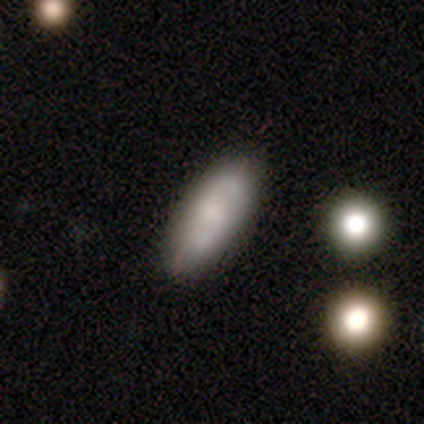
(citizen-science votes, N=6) Smooth or featured: smooth — 83% (featured or disk — 17%)
How rounded: in between — 80% (cigar-shaped — 20%)
Merging: none — 100%